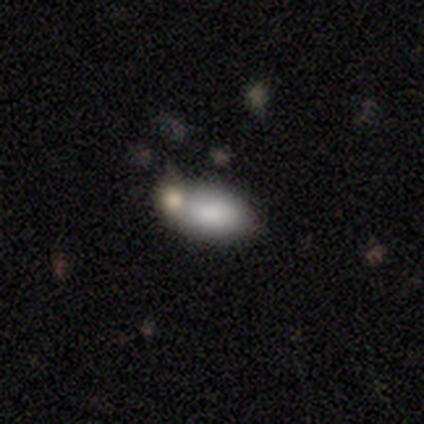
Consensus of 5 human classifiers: Smooth or featured?
  - smooth: 100% *
  - featured or disk: 0%
  - star or artifact: 0%
How rounded?
  - in between: 100% *
  - round: 0%
  - cigar-shaped: 0%
Merging?
  - none: 100% *
  - minor disturbance: 0%
  - major disturbance: 0%
  - merger: 0%